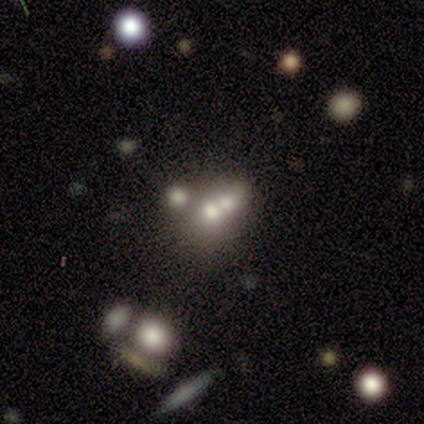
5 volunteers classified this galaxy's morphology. This is likely a smooth galaxy (60%). How rounded: likely round (67%). Merging: likely merger (75%).